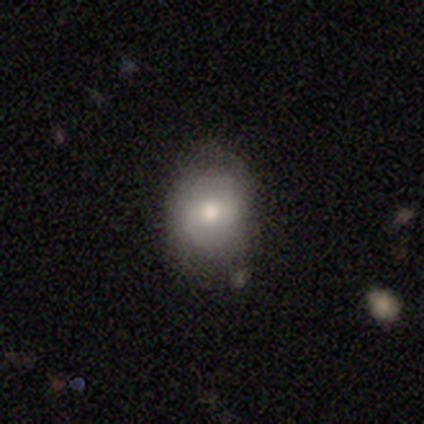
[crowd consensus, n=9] Smooth or featured: smooth — 78% (featured or disk — 22%)
How rounded: round — 57% (in between — 43%)
Merging: none — 67% (minor disturbance — 22%)